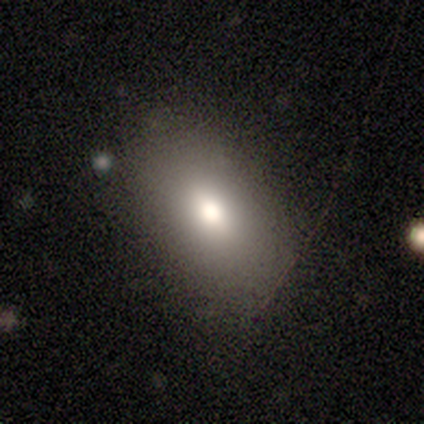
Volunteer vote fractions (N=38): Volunteers were most divided on "merging": none: 76%, minor disturbance: 18%, major disturbance: 3%, merger: 3%. More confident: how rounded — in between (94%); smooth or featured — smooth (82%).